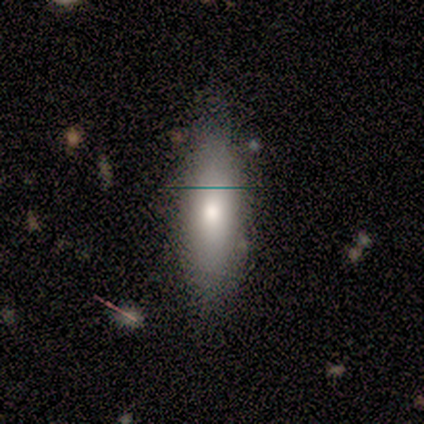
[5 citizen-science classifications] smooth-or-featured: smooth: 60% | featured or disk: 20% | star or artifact: 20%
  how-rounded: cigar-shaped: 100% | round: 0% | in between: 0%
  merging: none: 75% | minor disturbance: 25% | major disturbance: 0% | merger: 0%